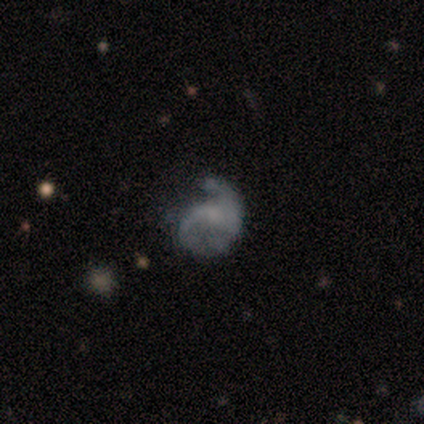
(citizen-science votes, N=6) A featured or disk galaxy (100%) with no bar (83%), 2 (50%) loose (75%) spiral arms (67%) and no central bulge (50%).

Vote fractions:
- Smooth or featured? featured or disk: 100% / smooth: 0% / star or artifact: 0%
- Edge-on disk? no: 100% / yes: 0%
- Bar? no: 83% / weak: 17% / strong: 0%
- Spiral arms? yes: 67% / no: 33%
- Spiral winding? loose: 75% / medium: 25% / tight: 0%
- Spiral arm count? 2: 50% / 1: 25% / can't tell: 25% / 3: 0% / 4: 0% / more than 4: 0%
- Bulge size? none: 50% / moderate: 33% / small: 17% / dominant: 0% / large: 0%
- Merging? major disturbance: 83% / minor disturbance: 17% / none: 0% / merger: 0%